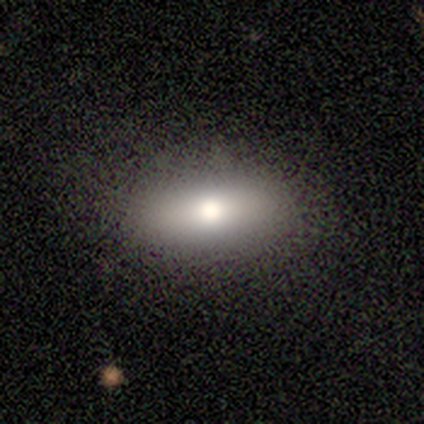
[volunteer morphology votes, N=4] This is likely a smooth galaxy (75%). How rounded: clearly in between (100%). Merging: clearly none (100%).